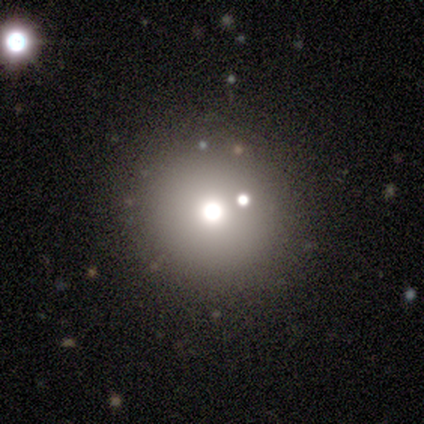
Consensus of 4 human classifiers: Morphology: type=smooth (50%); roundness=round (100%); merging=none (67%).